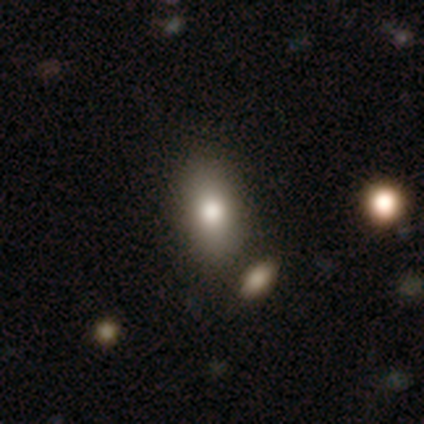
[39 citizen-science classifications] A smooth galaxy with no disk features (77%) that is in between round and cigar-shaped (83%). Merging: none (64%).